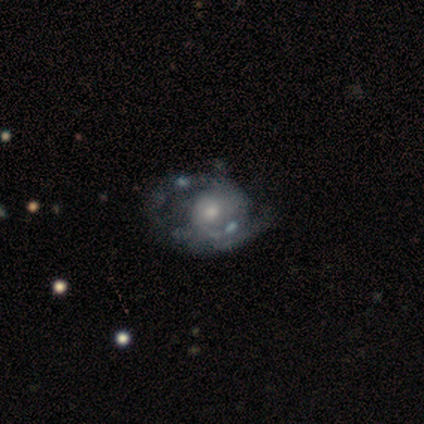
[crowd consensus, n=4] smooth_or_featured: featured or disk (p=1.00)
disk_edge_on: no (p=1.00)
bar: no (p=0.75) [alt: weak p=0.25]
has_spiral_arms: yes (p=0.75) [alt: no p=0.25]
spiral_winding: loose (p=0.67) [alt: tight p=0.33]
spiral_arm_count: 2 (p=0.67) [alt: 3 p=0.33]
bulge_size: moderate (p=0.75) [alt: large p=0.25]
merging: none (p=0.50) [tied with: major disturbance p=0.50]